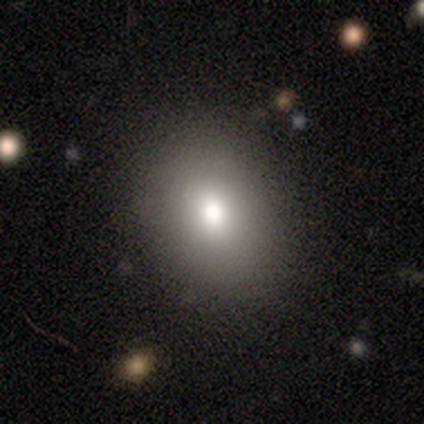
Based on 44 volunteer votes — Smooth or featured? smooth (89%)
How rounded? round (59%)
Merging? none (90%)